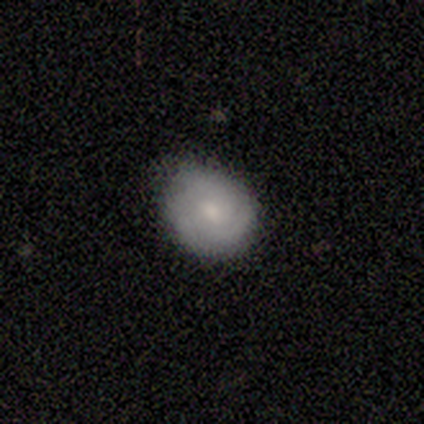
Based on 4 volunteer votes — Morphology: type=featured or disk (50%, tied with star or artifact); edge-on=no (100%); bar=no (100%); spiral arms=yes (100%); winding=medium (100%); arm count=2 (50%, tied with 3); bulge=moderate (50%, tied with small); merging=none (100%).